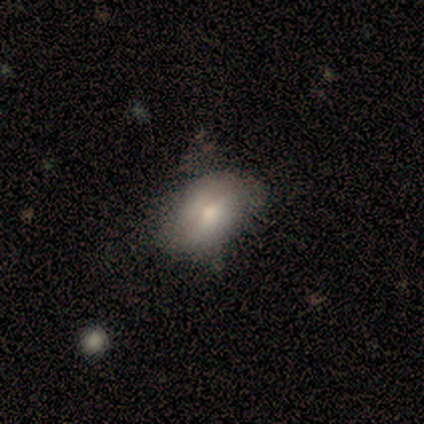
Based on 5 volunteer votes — This appears to be a smooth galaxy with no disk features (100%) that is in between round and cigar-shaped (80%). Merging: none (60%).